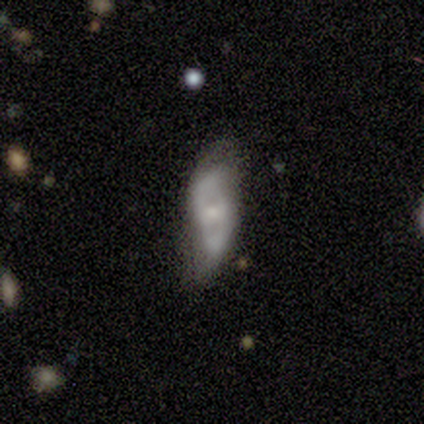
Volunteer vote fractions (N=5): smooth-or-featured: featured or disk: 60% | smooth: 40% | star or artifact: 0%
  disk-edge-on: no: 100% | yes: 0%
    bar: strong: 33% (tied) | weak: 33% (tied) | no: 33% (tied)
    has-spiral-arms: yes: 67% | no: 33%
      spiral-winding: medium: 50% (tied) | loose: 50% (tied) | tight: 0%
      spiral-arm-count: 2: 100% | 1: 0% | 3: 0% | 4: 0% | more than 4: 0% | can't tell: 0%
    bulge-size: small: 67% | moderate: 33% | dominant: 0% | large: 0% | none: 0%
  merging: none: 80% | major disturbance: 20% | minor disturbance: 0% | merger: 0%